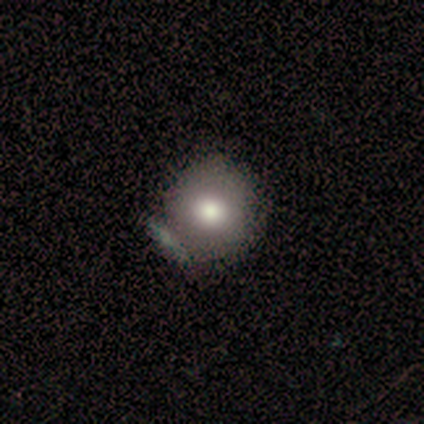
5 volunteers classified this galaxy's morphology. smooth_or_featured: smooth (p=0.60) [alt: featured or disk p=0.40]
how_rounded: round (p=1.00)
merging: none (p=0.60) [alt: minor disturbance p=0.20]